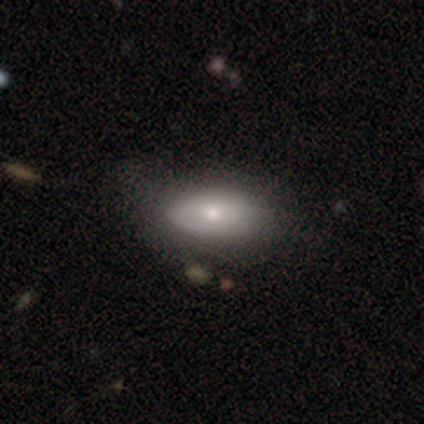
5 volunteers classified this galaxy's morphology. smooth-or-featured: featured or disk: 60% | smooth: 40% | star or artifact: 0%
  disk-edge-on: no: 67% | yes: 33%
    bar: no: 100% | strong: 0% | weak: 0%
    has-spiral-arms: yes: 50% (tied) | no: 50% (tied)
      spiral-winding: loose: 100% | tight: 0% | medium: 0%
      spiral-arm-count: can't tell: 100% | 1: 0% | 2: 0% | 3: 0% | 4: 0% | more than 4: 0%
    bulge-size: moderate: 50% (tied) | small: 50% (tied) | dominant: 0% | large: 0% | none: 0%
  merging: none: 60% | minor disturbance: 20% | major disturbance: 20% | merger: 0%